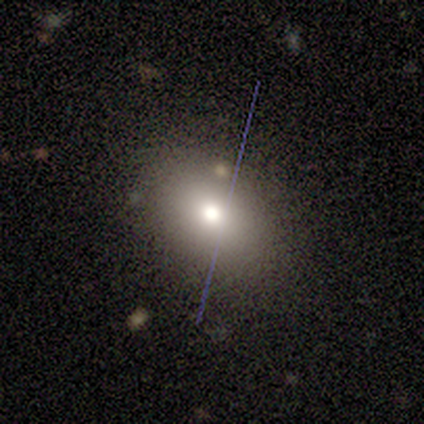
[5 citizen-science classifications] smooth_or_featured: smooth (p=1.00)
how_rounded: in between (p=0.80) [alt: round p=0.20]
merging: none (p=1.00)